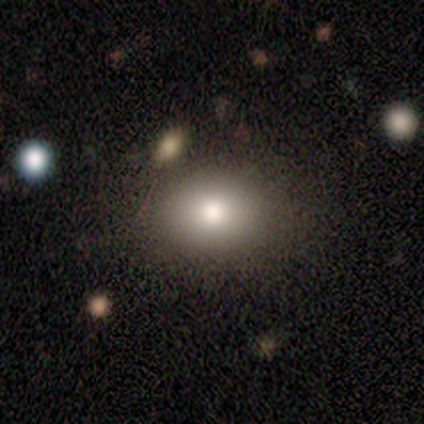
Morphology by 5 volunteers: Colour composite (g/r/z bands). It shows a smooth galaxy with no disk features (80%) that is round (50%, tied with in between). Merging: none (75%).